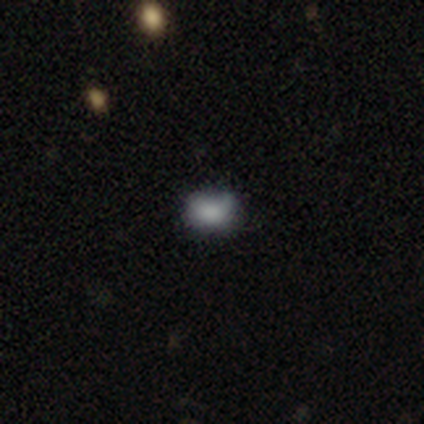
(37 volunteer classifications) A smooth galaxy with no disk features (78%) that is in between round and cigar-shaped (62%). Merging: none (56%).